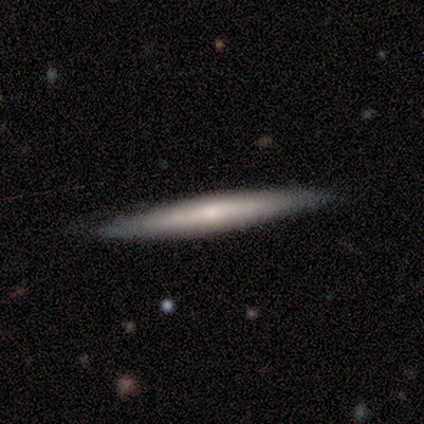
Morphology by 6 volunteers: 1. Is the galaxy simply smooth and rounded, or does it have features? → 67% featured or disk, 33% smooth, 0% star or artifact.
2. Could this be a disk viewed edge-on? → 100% yes, 0% no.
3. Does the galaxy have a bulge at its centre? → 75% none, 25% boxy, 0% rounded.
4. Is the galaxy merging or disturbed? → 83% none, 17% minor disturbance, 0% major disturbance, 0% merger.